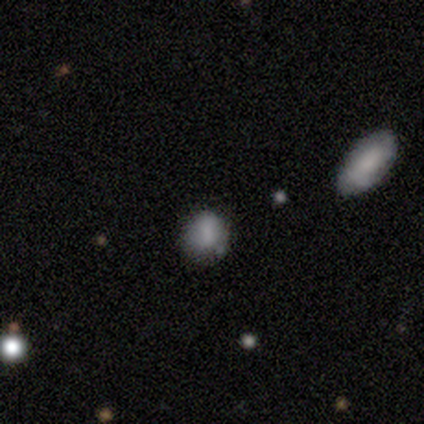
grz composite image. It shows a smooth galaxy with no disk features (80%) that is round (75%). Merging: none (50%).